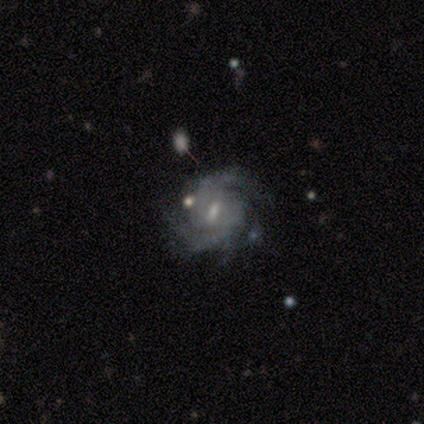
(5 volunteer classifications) Volunteers were most divided on "spiral arm count" (2-way tie): 2: 40%, 3: 40%, can't tell: 20%, 1: 0%, 4: 0%, more than 4: 0%. More confident: smooth or featured — featured or disk (100%); edge-on disk — no (100%); spiral arms — yes (100%); bar — weak (80%); spiral winding — tight (80%); bulge size — small (80%); merging — none (80%).